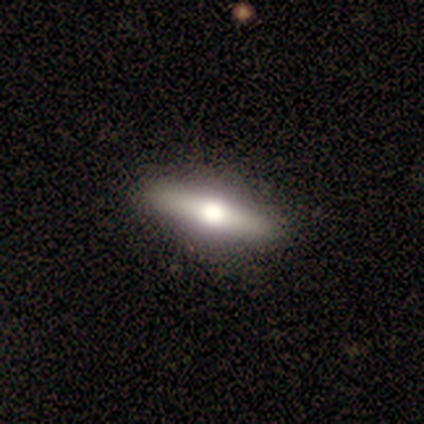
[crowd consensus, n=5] smooth-or-featured: featured or disk: 80% | smooth: 20% | star or artifact: 0%
  disk-edge-on: yes: 75% | no: 25%
    edge-on-bulge: rounded: 100% | boxy: 0% | none: 0%
  merging: none: 100% | minor disturbance: 0% | major disturbance: 0% | merger: 0%